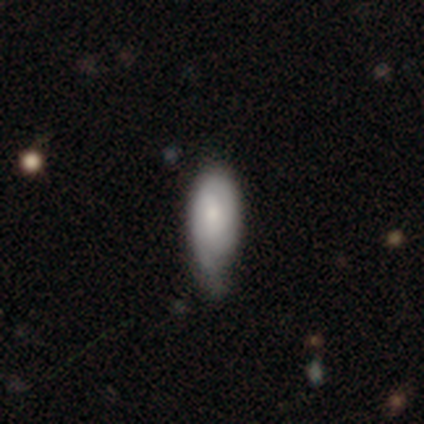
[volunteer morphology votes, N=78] smooth 59%, featured or disk 37%, star or artifact 4%. Down the decision tree: how rounded — in between (89%); merging — minor disturbance (29%).